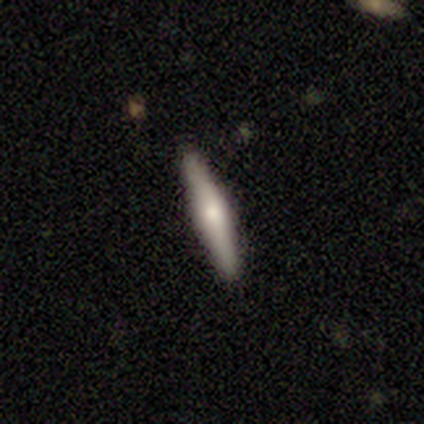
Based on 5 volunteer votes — This appears to be a smooth galaxy with no disk features (60%) that is cigar-shaped (100%). Merging: none (100%).